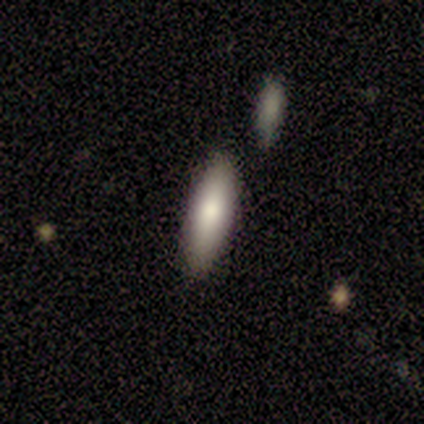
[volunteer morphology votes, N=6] A smooth galaxy with no disk features (67%) that is in between round and cigar-shaped (50%, tied with cigar-shaped). Merging: none (60%).